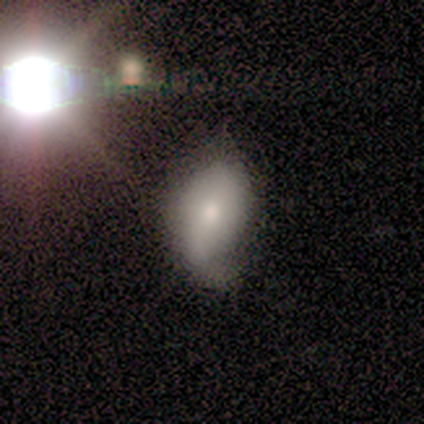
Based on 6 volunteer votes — Volunteers were most divided on "merging": minor disturbance: 50%, major disturbance: 33%, none: 17%, merger: 0%. More confident: how rounded — in between (100%); smooth or featured — smooth (83%).